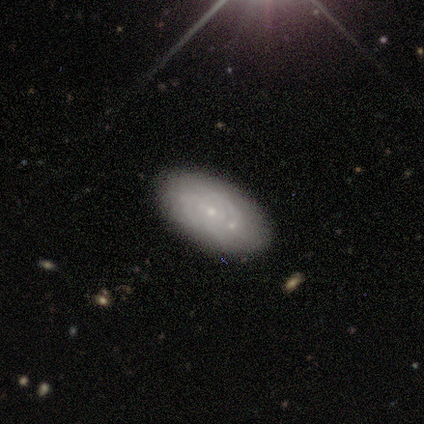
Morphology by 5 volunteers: type=featured or disk (100%); edge-on=no (100%); bar=no (60%); spiral arms=yes (80%); winding=tight (75%); arm count=can't tell (100%); bulge=small (100%); merging=none (60%).